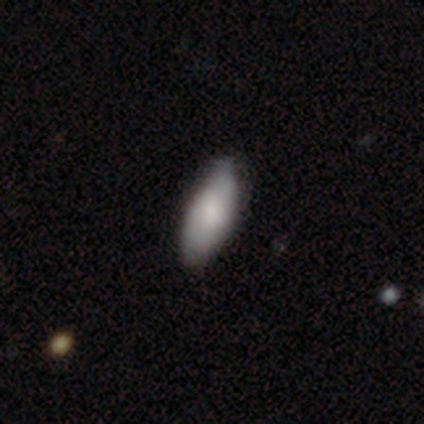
smooth-or-featured: smooth: 100% | featured or disk: 0% | star or artifact: 0%
  how-rounded: in between: 100% | round: 0% | cigar-shaped: 0%
  merging: none: 75% | major disturbance: 25% | minor disturbance: 0% | merger: 0%